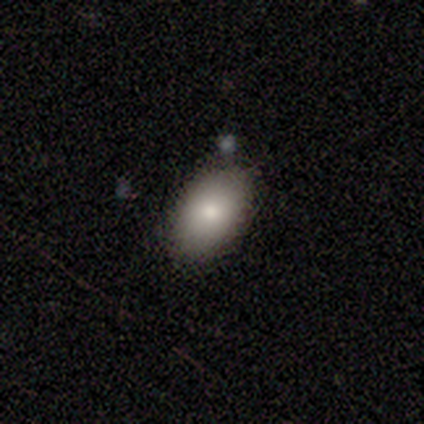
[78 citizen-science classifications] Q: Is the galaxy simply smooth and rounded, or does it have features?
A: smooth — 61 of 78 (78%).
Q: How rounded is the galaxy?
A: in between — 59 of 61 (97%).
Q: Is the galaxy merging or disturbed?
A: none — 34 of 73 (47%).